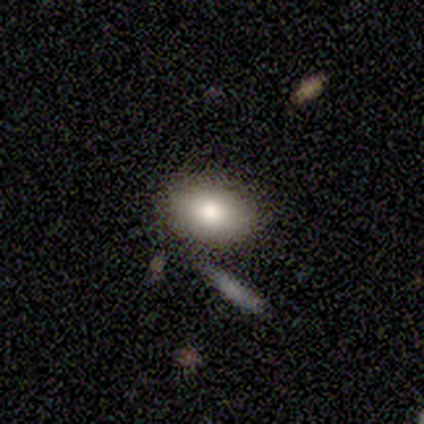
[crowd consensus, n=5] This appears to be a smooth galaxy with no disk features (100%) that is in between round and cigar-shaped (100%). Merging: none (80%).